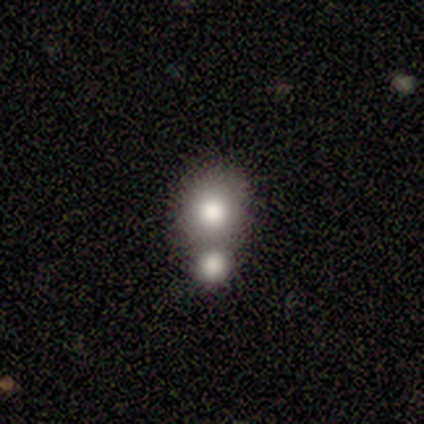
This appears to be a smooth galaxy with no disk features (60%) that is in between round and cigar-shaped (67%). Merging: none (80%).